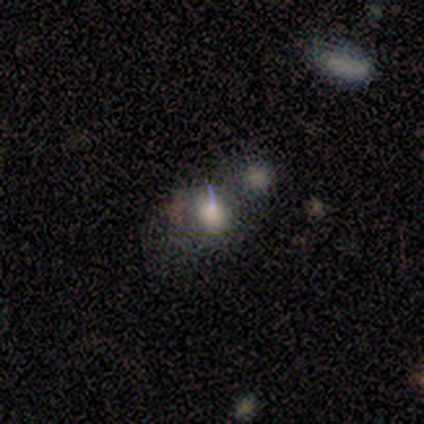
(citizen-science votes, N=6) Smooth or featured?
  - smooth: 50% * (tied)
  - star or artifact: 50% * (tied)
  - featured or disk: 0%
How rounded?
  - round: 67% *
  - in between: 33%
  - cigar-shaped: 0%
Merging?
  - none: 33% * (tied)
  - major disturbance: 33% * (tied)
  - merger: 33% * (tied)
  - minor disturbance: 0%